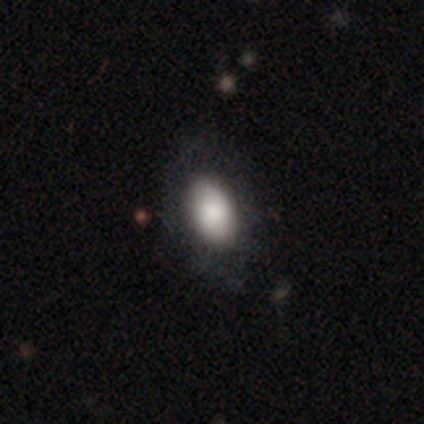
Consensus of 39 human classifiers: This appears to be a smooth galaxy with no disk features (62%) that is in between round and cigar-shaped (83%). Merging: none (55%).